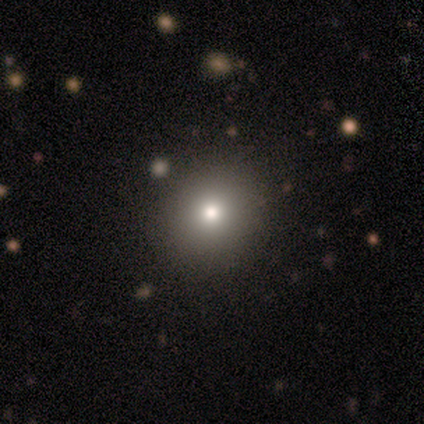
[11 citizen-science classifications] This appears to be a smooth galaxy with no disk features (64%) that is round (86%). Merging: none (100%).